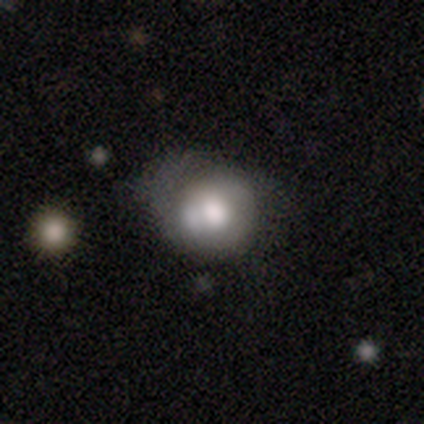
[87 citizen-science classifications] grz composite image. It shows a smooth galaxy with no disk features (52%) that is round (89%). Merging: none (43%).